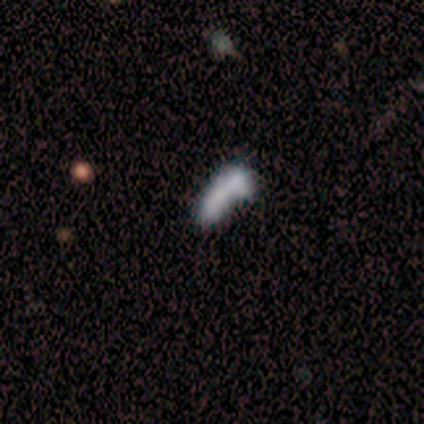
Morphology: type=smooth (60%); roundness=in between (67%); merging=merger (75%).